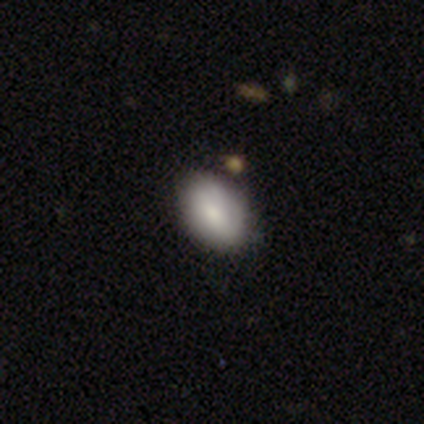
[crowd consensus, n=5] Overall: smooth (80%). How rounded: in between (100%). Merging: none (75%).